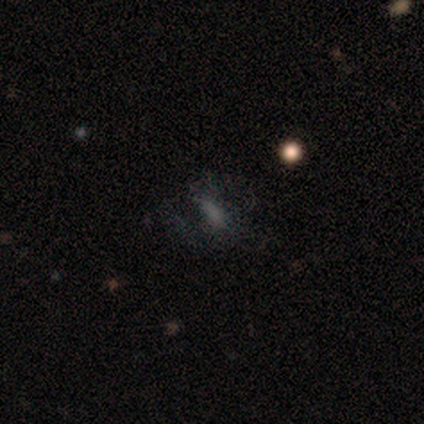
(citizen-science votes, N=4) Smooth or featured?
  - smooth: 50% * (tied)
  - featured or disk: 50% * (tied)
  - star or artifact: 0%
How rounded?
  - round: 50% * (tied)
  - cigar-shaped: 50% * (tied)
  - in between: 0%
Merging?
  - none: 75% *
  - major disturbance: 25%
  - minor disturbance: 0%
  - merger: 0%